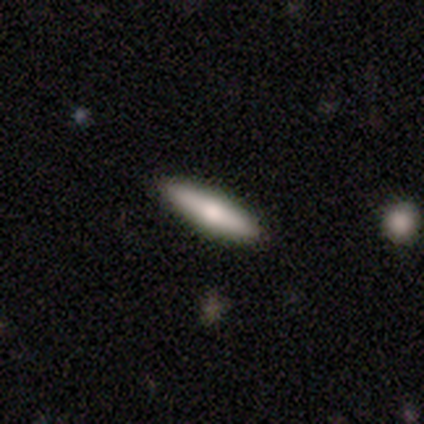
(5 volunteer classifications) This is likely a featured or disk galaxy (60%). It is likely viewed edge-on (67%). Edge-on bulge: clearly rounded (100%). Merging: clearly none (100%).